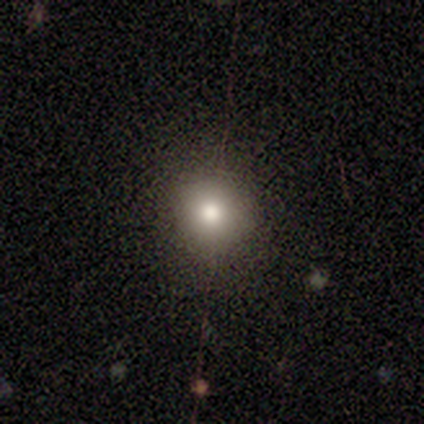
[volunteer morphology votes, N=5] Smooth or featured: smooth — 40% (tied with featured or disk — 40%)
How rounded: round — 100%
Merging: none — 100%